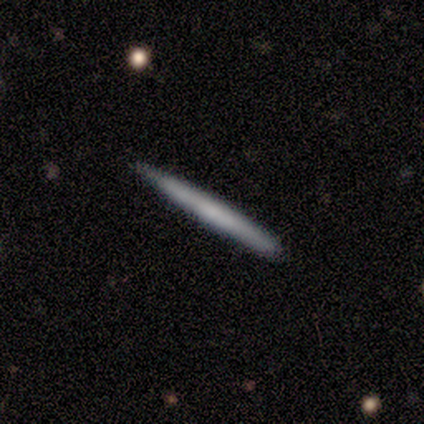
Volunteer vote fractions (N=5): Smooth or featured? smooth (60%)
How rounded? cigar-shaped (100%)
Merging? none (80%)